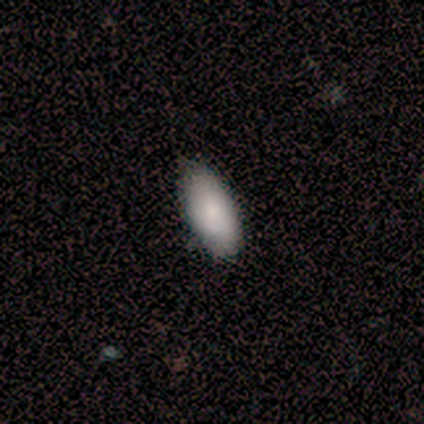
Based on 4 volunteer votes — Morphology: type=smooth (100%); roundness=in between (50%, tied with cigar-shaped); merging=none (100%).